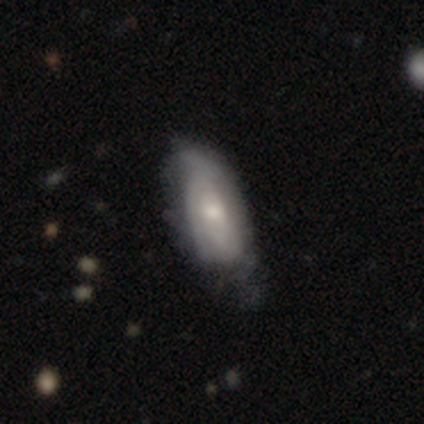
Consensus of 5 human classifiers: A featured or disk galaxy (80%) with no bar (100%), 1 (33%, tied with 2 and can't tell) medium (67%) spiral arms (100%) and a moderate central bulge (67%). Merging: none (80%).